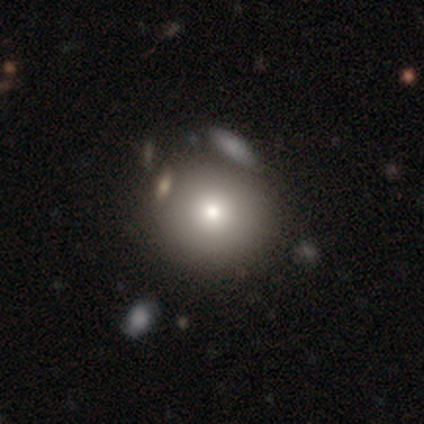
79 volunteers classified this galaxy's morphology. A smooth galaxy with no disk features (81%) that is round (95%). Merging: none (36%).